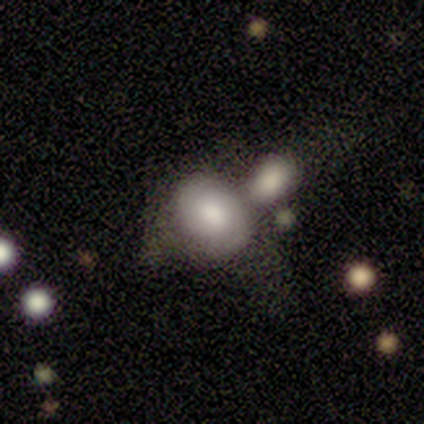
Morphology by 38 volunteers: Volunteers were most divided on "merging": merger: 50%, none: 17%, minor disturbance: 14%, major disturbance: 6%. More confident: how rounded — in between (85%); smooth or featured — smooth (68%).